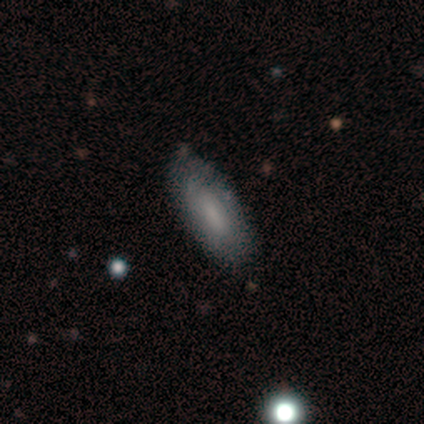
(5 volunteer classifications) smooth_or_featured: smooth (p=0.60) [alt: featured or disk p=0.40]
how_rounded: in between (p=0.67) [alt: round p=0.33]
merging: none (p=0.60) [alt: minor disturbance p=0.40]